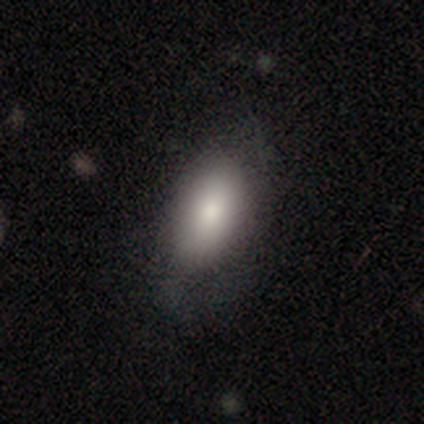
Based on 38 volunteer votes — Q: Smooth or featured?
A: smooth (79%); runner-up: featured or disk (16%)
Q: How rounded?
A: in between (93%); runner-up: round (3%)
Q: Merging?
A: none (67%); runner-up: minor disturbance (19%)